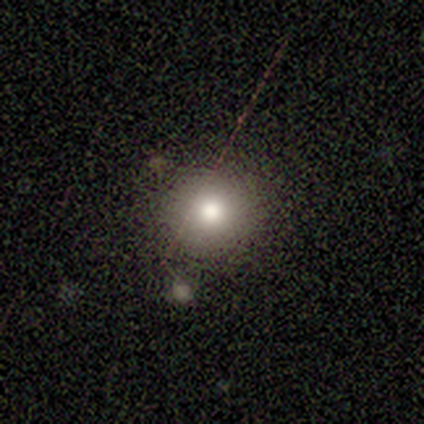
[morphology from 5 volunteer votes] Smooth or featured?
  - smooth: 100% *
  - featured or disk: 0%
  - star or artifact: 0%
How rounded?
  - round: 80% *
  - in between: 20%
  - cigar-shaped: 0%
Merging?
  - none: 80% *
  - minor disturbance: 20%
  - major disturbance: 0%
  - merger: 0%